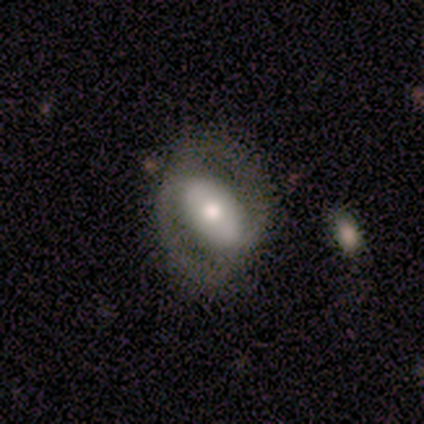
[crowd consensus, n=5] Smooth or featured?
  - featured or disk: 60% *
  - smooth: 40%
  - star or artifact: 0%
Edge-on disk?
  - no: 100% *
  - yes: 0%
Bar?
  - strong: 67% *
  - no: 33%
  - weak: 0%
Spiral arms?
  - yes: 100% *
  - no: 0%
Spiral winding?
  - tight: 33% * (tied)
  - medium: 33% * (tied)
  - loose: 33% * (tied)
Spiral arm count?
  - 2: 67% *
  - can't tell: 33%
  - 1: 0%
  - 3: 0%
  - 4: 0%
  - more than 4: 0%
Bulge size?
  - moderate: 67% *
  - large: 33%
  - dominant: 0%
  - small: 0%
  - none: 0%
Merging?
  - none: 80% *
  - minor disturbance: 20%
  - major disturbance: 0%
  - merger: 0%